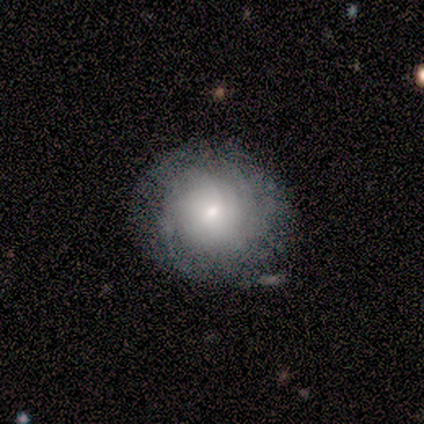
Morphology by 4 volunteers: smooth-or-featured: featured or disk: 50% | smooth: 25% | star or artifact: 25%
  disk-edge-on: no: 100% | yes: 0%
    bar: weak: 50% (tied) | no: 50% (tied) | strong: 0%
    has-spiral-arms: yes: 100% | no: 0%
      spiral-winding: tight: 50% (tied) | medium: 50% (tied) | loose: 0%
      spiral-arm-count: 1: 50% (tied) | can't tell: 50% (tied) | 2: 0% | 3: 0% | 4: 0% | more than 4: 0%
    bulge-size: large: 50% (tied) | small: 50% (tied) | dominant: 0% | moderate: 0% | none: 0%
  merging: none: 67% | minor disturbance: 33% | major disturbance: 0% | merger: 0%